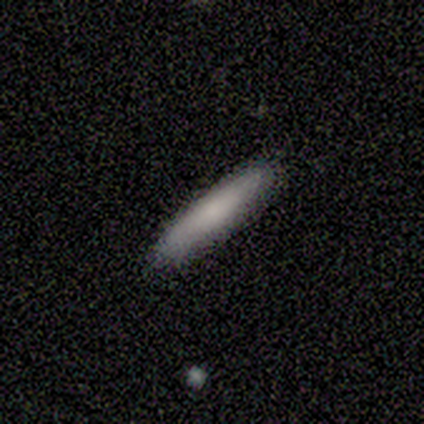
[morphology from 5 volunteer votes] Volunteers were most divided on "smooth or featured": smooth: 60%, featured or disk: 40%, star or artifact: 0%. More confident: how rounded — cigar-shaped (100%); merging — none (80%).